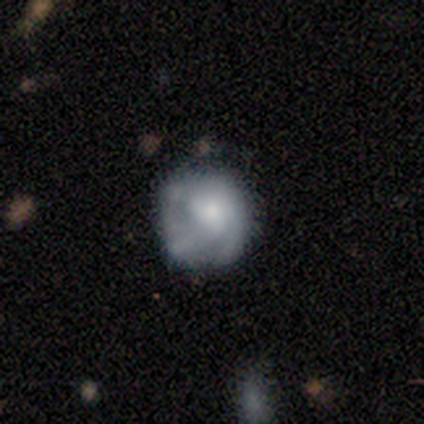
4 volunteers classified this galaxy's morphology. A featured or disk galaxy (100%) with no bar (100%), tight (50%, tied with medium) spiral arms (50%, tied with no) and a small central bulge (50%).

Vote fractions:
- Smooth or featured? featured or disk: 100% / smooth: 0% / star or artifact: 0%
- Edge-on disk? no: 100% / yes: 0%
- Bar? no: 100% / strong: 0% / weak: 0%
- Spiral arms? yes: 50% (tied) / no: 50% (tied)
- Spiral winding? tight: 50% (tied) / medium: 50% (tied) / loose: 0%
- Spiral arm count? can't tell: 100% / 1: 0% / 2: 0% / 3: 0% / 4: 0% / more than 4: 0%
- Bulge size? small: 50% / moderate: 25% / none: 25% / dominant: 0% / large: 0%
- Merging? minor disturbance: 75% / major disturbance: 25% / none: 0% / merger: 0%